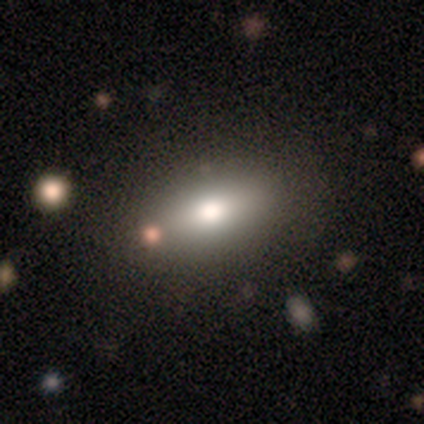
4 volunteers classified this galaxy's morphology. type=smooth (50%); roundness=in between (100%); merging=none (100%).